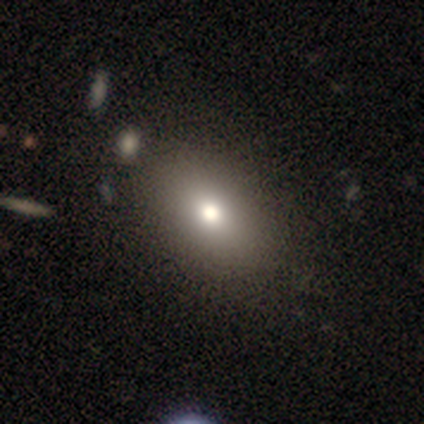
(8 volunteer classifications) Smooth or featured: smooth — 100%
How rounded: in between — 62% (round — 25%)
Merging: none — 75% (minor disturbance — 12%)